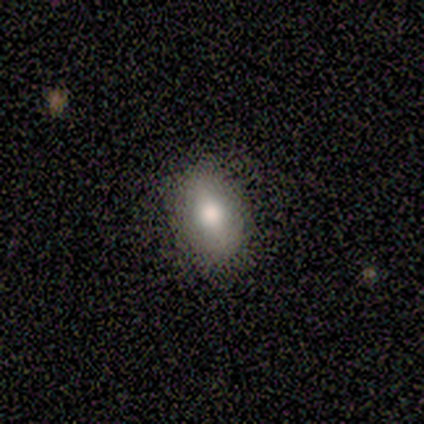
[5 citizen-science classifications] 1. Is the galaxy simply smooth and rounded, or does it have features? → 60% smooth, 20% featured or disk, 20% star or artifact.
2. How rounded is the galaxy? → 100% in between, 0% round, 0% cigar-shaped.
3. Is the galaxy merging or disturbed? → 75% none, 25% minor disturbance, 0% major disturbance, 0% merger.